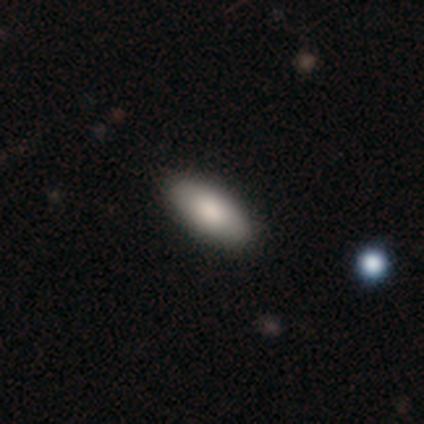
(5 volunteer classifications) A smooth galaxy with no disk features (100%) that is in between round and cigar-shaped (100%). Merging: none (60%).